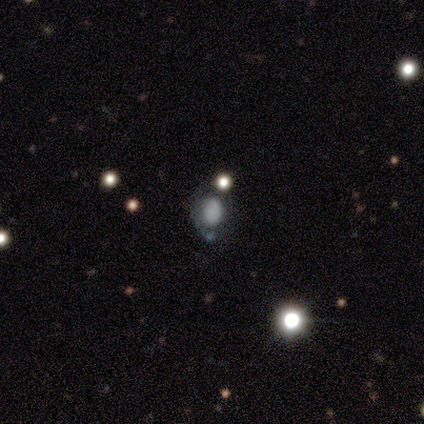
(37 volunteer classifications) This appears to be a smooth galaxy with no disk features (57%) that is in between round and cigar-shaped (52%). Merging: none (43%).